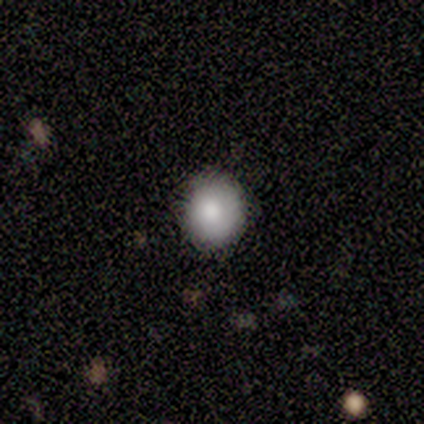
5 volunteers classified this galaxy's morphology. A smooth galaxy with no disk features (100%) that is round (100%).

Vote fractions:
- Smooth or featured? smooth: 100% / featured or disk: 0% / star or artifact: 0%
- How rounded? round: 100% / in between: 0% / cigar-shaped: 0%
- Merging? none: 80% / minor disturbance: 20% / major disturbance: 0% / merger: 0%